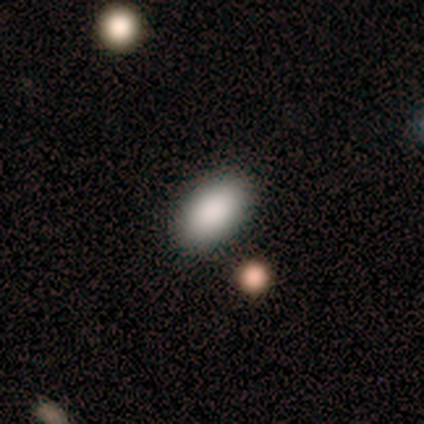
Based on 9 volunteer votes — A smooth galaxy with no disk features (89%) that is in between round and cigar-shaped (100%). Merging: none (75%).